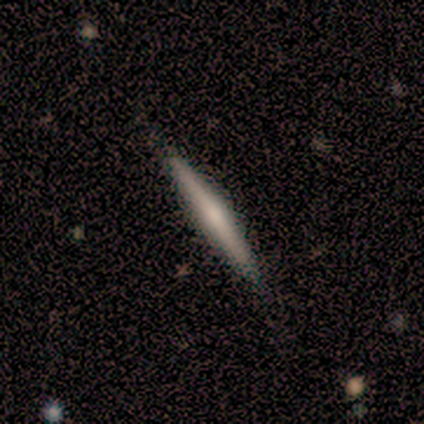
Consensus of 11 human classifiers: A smooth galaxy with no disk features (64%) that is cigar-shaped (100%). Merging: none (90%).